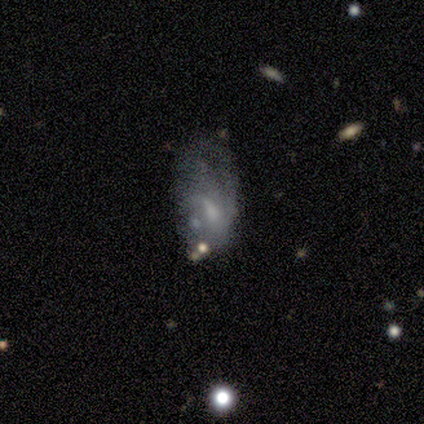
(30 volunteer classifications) Smooth or featured? 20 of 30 (67%) said featured or disk. Edge-on disk? 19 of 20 (95%) said no. Bar? 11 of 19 (58%) said no. Spiral arms? 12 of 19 (63%) said no. Bulge size? 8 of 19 (42%) said none. Merging? 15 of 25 (60%) said major disturbance.